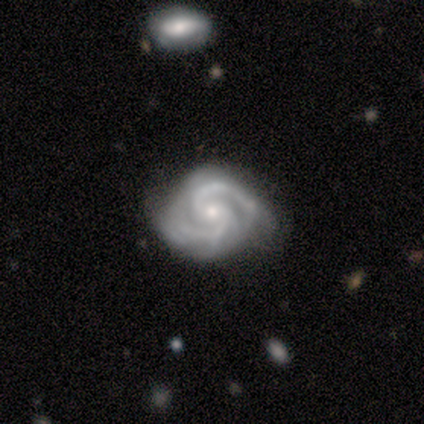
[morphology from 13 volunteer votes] A featured or disk galaxy (100%) with no bar (62%), 2 (62%) tight (77%) spiral arms (100%) and a small central bulge (69%).

Vote fractions:
- Smooth or featured? featured or disk: 100% / smooth: 0% / star or artifact: 0%
- Edge-on disk? no: 100% / yes: 0%
- Bar? no: 62% / weak: 23% / strong: 15%
- Spiral arms? yes: 100% / no: 0%
- Spiral winding? tight: 77% / medium: 23% / loose: 0%
- Spiral arm count? 2: 62% / 3: 23% / 4: 8% / can't tell: 8% / 1: 0% / more than 4: 0%
- Bulge size? small: 69% / moderate: 31% / dominant: 0% / large: 0% / none: 0%
- Merging? none: 77% / minor disturbance: 15% / major disturbance: 8% / merger: 0%